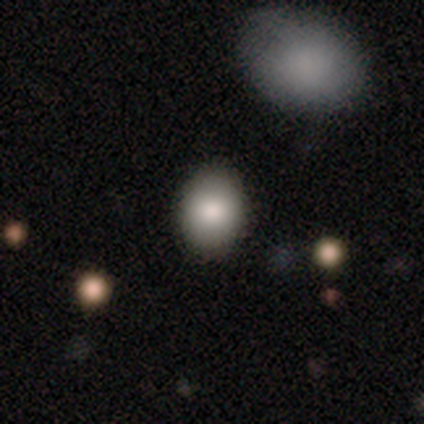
Smooth or featured?
  - smooth: 78% *
  - star or artifact: 16%
  - featured or disk: 6%
How rounded?
  - round: 51% *
  - in between: 46%
  - cigar-shaped: 3%
Merging?
  - none: 90% *
  - minor disturbance: 8%
  - major disturbance: 1%
  - merger: 0%